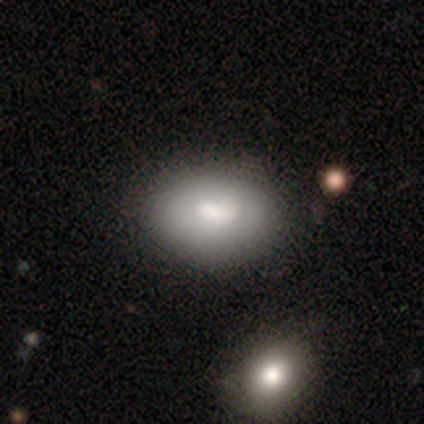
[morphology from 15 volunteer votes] Overall: smooth (73%). How rounded: in between (100%). Merging: none (62%; minor disturbance 31%).